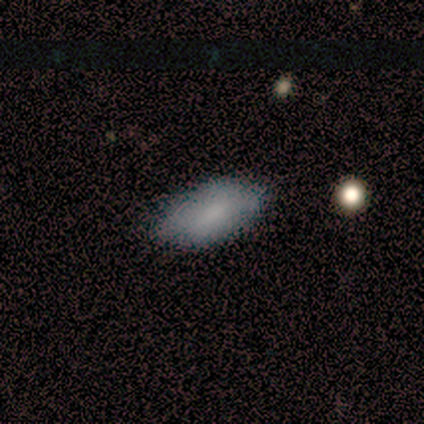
This is clearly a smooth galaxy (80%). How rounded: clearly in between (100%). Merging: likely none (75%).